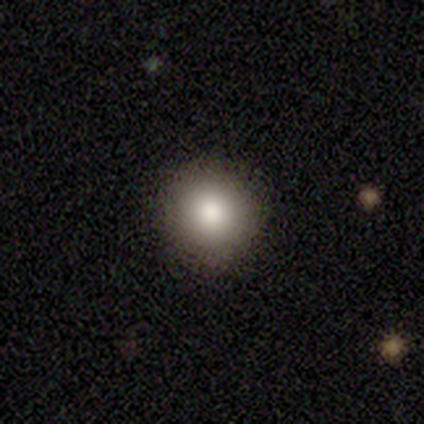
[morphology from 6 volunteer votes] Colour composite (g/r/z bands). It shows a smooth galaxy with no disk features (83%) that is round (100%). Merging: none (83%).